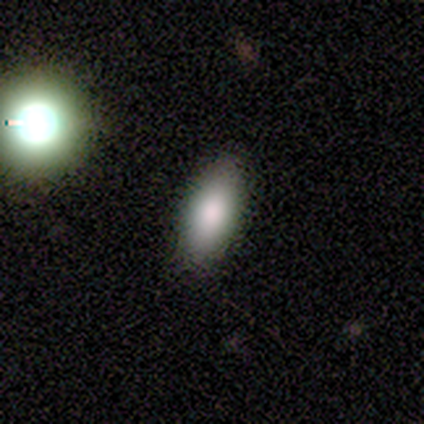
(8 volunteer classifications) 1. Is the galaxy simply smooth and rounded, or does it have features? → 88% smooth, 12% featured or disk, 0% star or artifact.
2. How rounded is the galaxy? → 71% in between, 29% cigar-shaped, 0% round.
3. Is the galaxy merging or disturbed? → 75% none, 12% minor disturbance, 12% major disturbance, 0% merger.